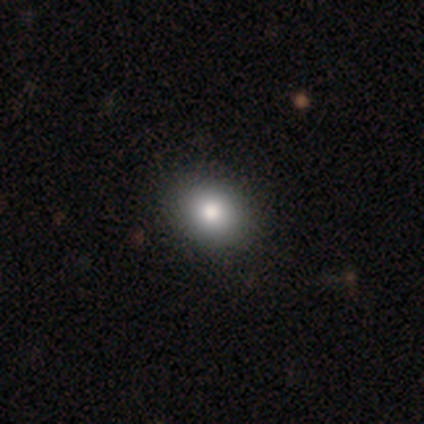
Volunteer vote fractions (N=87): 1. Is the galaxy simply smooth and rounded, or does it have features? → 77% smooth, 11% featured or disk, 11% star or artifact.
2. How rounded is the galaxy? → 60% round, 39% in between, 1% cigar-shaped.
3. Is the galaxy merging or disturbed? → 82% none, 16% minor disturbance, 1% major disturbance, 1% merger.